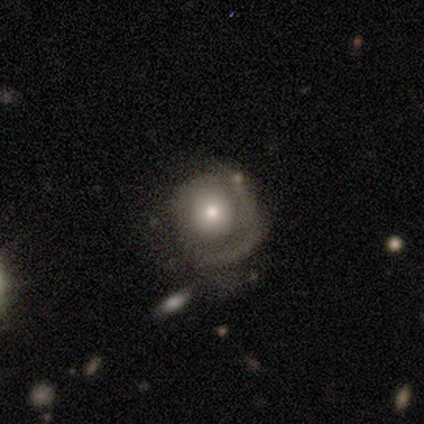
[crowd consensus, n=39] A featured or disk galaxy (62%) with no bar (92%), 1 (50%) tight (69%) spiral arms (67%) and a moderate central bulge (62%).

Vote fractions:
- Smooth or featured? featured or disk: 62% / smooth: 33% / star or artifact: 5%
- Edge-on disk? no: 100% / yes: 0%
- Bar? no: 92% / weak: 8% / strong: 0%
- Spiral arms? yes: 67% / no: 33%
- Spiral winding? tight: 69% / medium: 19% / loose: 12%
- Spiral arm count? 1: 50% / 2: 25% / can't tell: 19% / 3: 6% / 4: 0% / more than 4: 0%
- Bulge size? moderate: 62% / large: 21% / small: 17% / dominant: 0% / none: 0%
- Merging? minor disturbance: 35% / major disturbance: 22% / none: 19% / merger: 3%